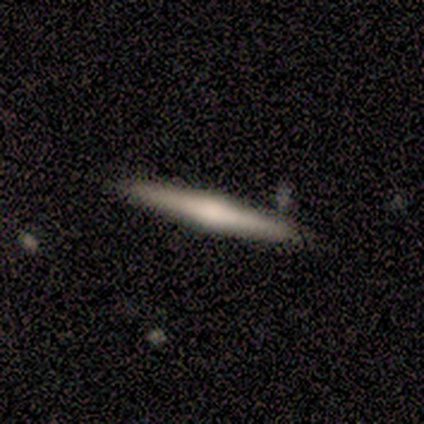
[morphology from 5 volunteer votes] Q: Smooth or featured?
A: featured or disk (80%); runner-up: smooth (20%)
Q: Edge-on disk?
A: yes (100%)
Q: Edge-on bulge?
A: rounded (100%)
Q: Merging?
A: none (80%); runner-up: minor disturbance (20%)